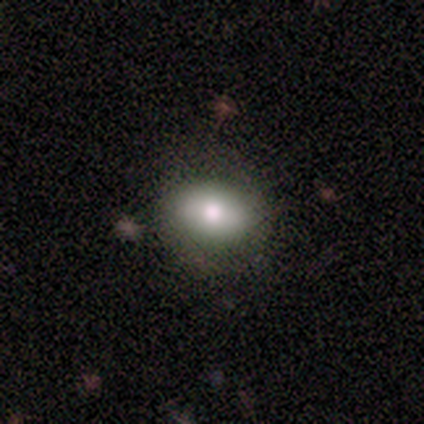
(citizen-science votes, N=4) Smooth or featured? 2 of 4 (50%) said smooth. How rounded? 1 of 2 (50%, tied with in between) said round. Merging? 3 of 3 (100%) said none.